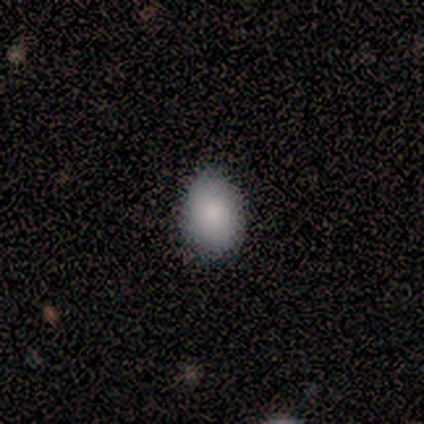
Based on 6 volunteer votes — smooth 83%, featured or disk 17%, star or artifact 0%. Down the decision tree: how rounded — in between (60%); merging — none (100%).